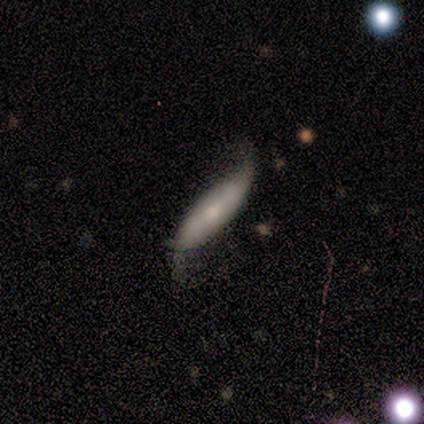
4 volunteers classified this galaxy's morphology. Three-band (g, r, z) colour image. It shows a featured or disk galaxy (75%) with no bar (67%), 2 (100%) loose (100%) spiral arms (100%) and a small central bulge (67%). Merging: none (50%, tied with minor disturbance).